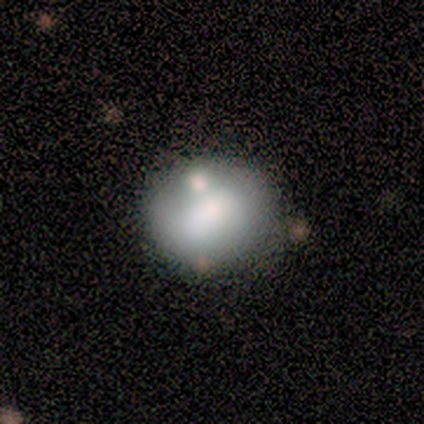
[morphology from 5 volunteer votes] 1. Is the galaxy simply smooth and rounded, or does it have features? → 80% smooth, 20% featured or disk, 0% star or artifact.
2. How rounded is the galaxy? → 50% round (tied), 50% in between (tied), 0% cigar-shaped.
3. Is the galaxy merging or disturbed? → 80% none, 20% minor disturbance, 0% major disturbance, 0% merger.